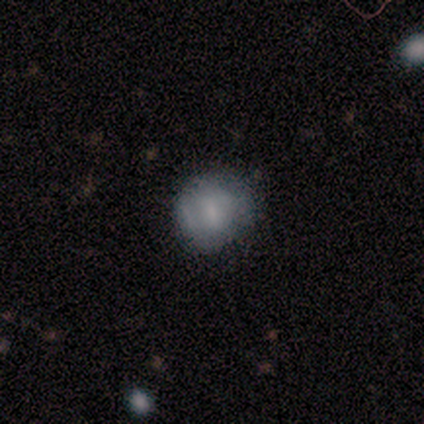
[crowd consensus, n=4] This is likely a smooth galaxy (75%). How rounded: clearly round (100%). Merging: likely minor disturbance (67%).